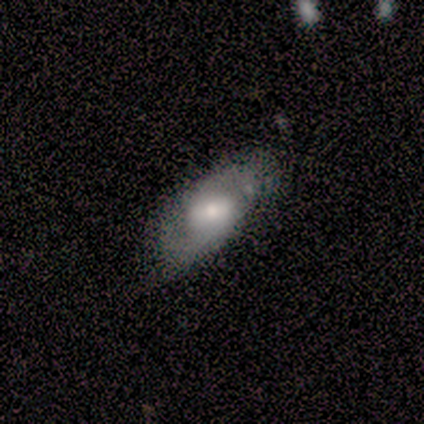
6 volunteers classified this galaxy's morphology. This is likely a smooth galaxy (67%). How rounded: likely in between (75%). Merging: possibly none (50%, tied with minor disturbance).